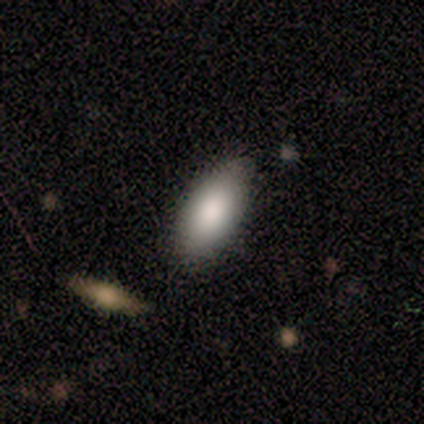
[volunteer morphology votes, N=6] smooth_or_featured: smooth (p=0.83) [alt: star or artifact p=0.17]
how_rounded: in between (p=0.80) [alt: cigar-shaped p=0.20]
merging: none (p=1.00)